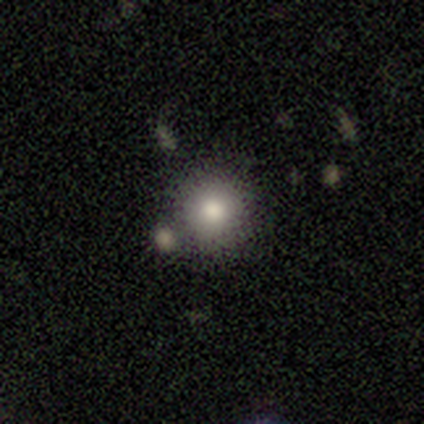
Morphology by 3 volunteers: Overall: smooth (100%). How rounded: round (67%; in between 33%). Merging: none (100%).